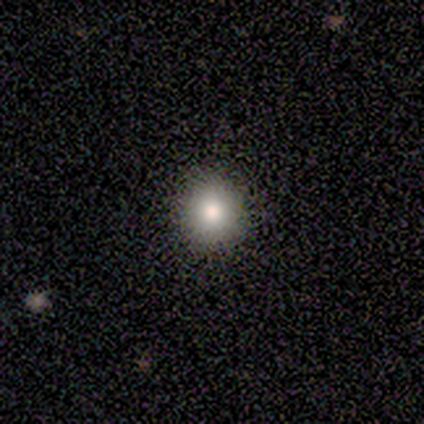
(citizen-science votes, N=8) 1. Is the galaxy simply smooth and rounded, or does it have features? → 75% smooth, 12% featured or disk, 12% star or artifact.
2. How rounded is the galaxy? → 100% round, 0% in between, 0% cigar-shaped.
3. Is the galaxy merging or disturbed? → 100% none, 0% minor disturbance, 0% major disturbance, 0% merger.